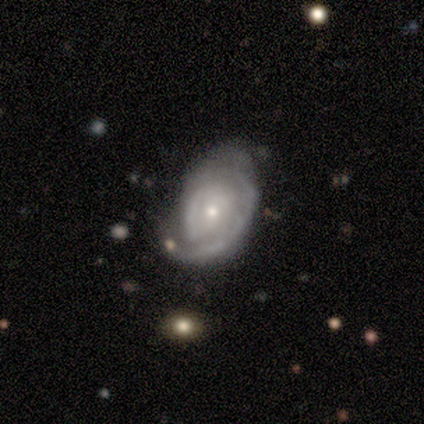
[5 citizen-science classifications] Smooth or featured?
  - featured or disk: 80% *
  - smooth: 20%
  - star or artifact: 0%
Edge-on disk?
  - no: 100% *
  - yes: 0%
Bar?
  - no: 75% *
  - weak: 25%
  - strong: 0%
Spiral arms?
  - yes: 100% *
  - no: 0%
Spiral winding?
  - tight: 75% *
  - medium: 25%
  - loose: 0%
Spiral arm count?
  - can't tell: 75% *
  - 1: 25%
  - 2: 0%
  - 3: 0%
  - 4: 0%
  - more than 4: 0%
Bulge size?
  - moderate: 50% * (tied)
  - small: 50% * (tied)
  - dominant: 0%
  - large: 0%
  - none: 0%
Merging?
  - minor disturbance: 100% *
  - none: 0%
  - major disturbance: 0%
  - merger: 0%